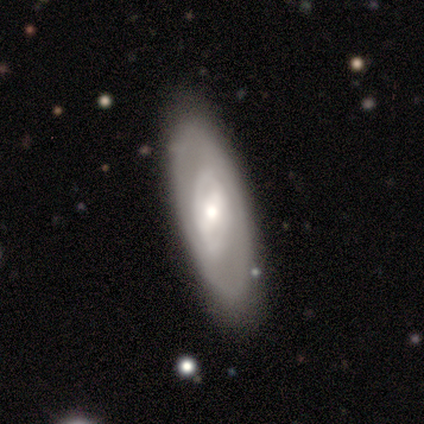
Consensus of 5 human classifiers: Smooth or featured?
  - featured or disk: 60% *
  - smooth: 40%
  - star or artifact: 0%
Edge-on disk?
  - no: 100% *
  - yes: 0%
Bar?
  - strong: 33% * (tied)
  - weak: 33% * (tied)
  - no: 33% * (tied)
Spiral arms?
  - no: 67% *
  - yes: 33%
Bulge size?
  - large: 33% * (tied)
  - moderate: 33% * (tied)
  - small: 33% * (tied)
  - dominant: 0%
  - none: 0%
Merging?
  - none: 60% *
  - minor disturbance: 20%
  - major disturbance: 20%
  - merger: 0%